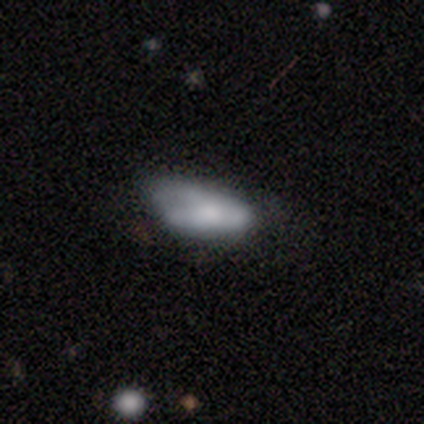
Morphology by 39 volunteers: smooth-or-featured: smooth: 62% | featured or disk: 28% | star or artifact: 10%
  how-rounded: in between: 96% | cigar-shaped: 4% | round: 0%
  merging: minor disturbance: 63% | major disturbance: 17% | none: 14% | merger: 6%